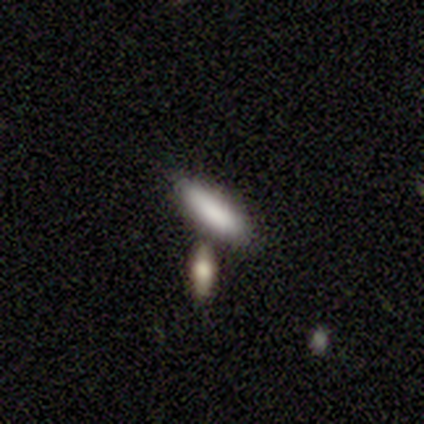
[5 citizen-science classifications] This is clearly a smooth galaxy (80%). How rounded: possibly in between (50%, tied with cigar-shaped). Merging: likely none (60%).